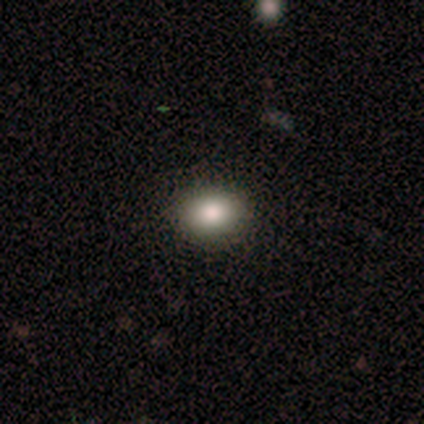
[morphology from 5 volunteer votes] Q: Smooth or featured?
A: smooth (100%)
Q: How rounded?
A: in between (60%); runner-up: round (40%)
Q: Merging?
A: none (100%)